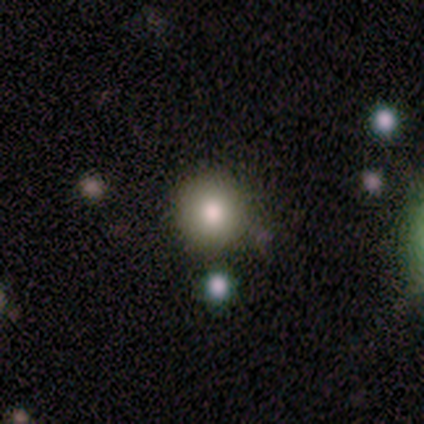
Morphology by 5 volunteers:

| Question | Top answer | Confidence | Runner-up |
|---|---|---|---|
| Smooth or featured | smooth | 60% | star or artifact (40%) |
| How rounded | round | 100% | — |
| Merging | none | 67% | minor disturbance (33%) |